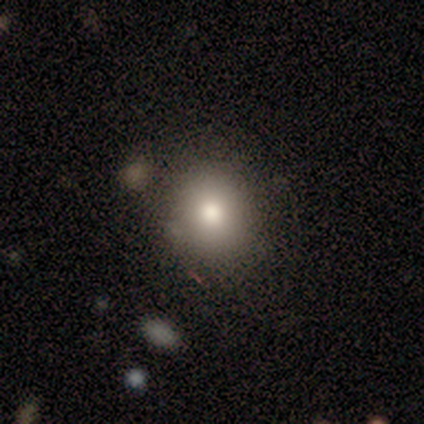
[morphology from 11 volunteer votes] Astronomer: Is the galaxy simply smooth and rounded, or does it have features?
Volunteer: smooth — 82%.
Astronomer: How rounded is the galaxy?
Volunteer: round — 67%.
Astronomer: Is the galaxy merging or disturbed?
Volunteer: none — 100%.